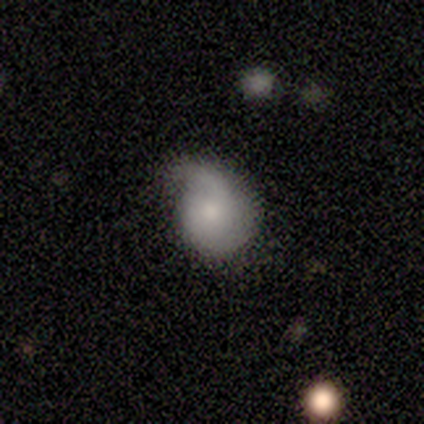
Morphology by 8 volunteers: Overall: featured or disk (62%; smooth 38%). Edge-on disk: no (100%). Bar: no (60%; weak 40%). Spiral arms: yes (100%). Spiral arm count: 2 (80%). Spiral winding: medium (60%; tight 20%). Bulge size: moderate (40%, tied with small). Merging: minor disturbance (62%; none 38%).